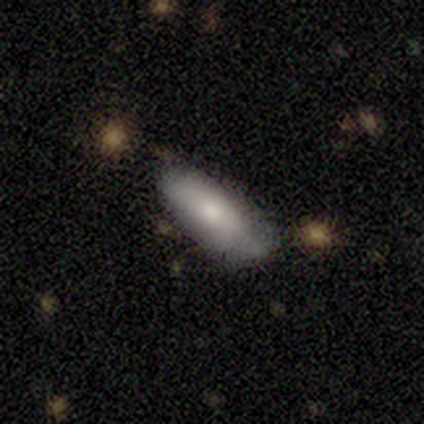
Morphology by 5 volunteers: Smooth or featured?
  - smooth: 80% *
  - featured or disk: 20%
  - star or artifact: 0%
How rounded?
  - in between: 75% *
  - cigar-shaped: 25%
  - round: 0%
Merging?
  - none: 60% *
  - minor disturbance: 20%
  - major disturbance: 20%
  - merger: 0%